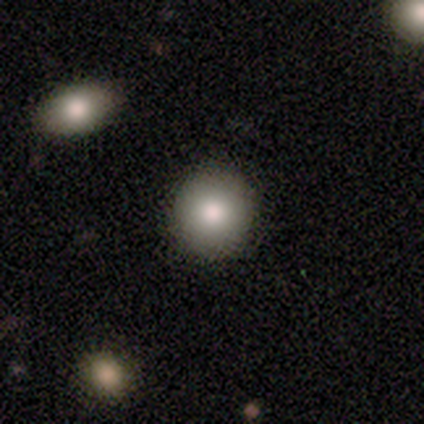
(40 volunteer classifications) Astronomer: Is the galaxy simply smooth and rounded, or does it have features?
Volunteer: smooth — 88%.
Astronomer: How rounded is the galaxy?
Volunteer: round — 91%.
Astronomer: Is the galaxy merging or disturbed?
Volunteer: none — 89%.